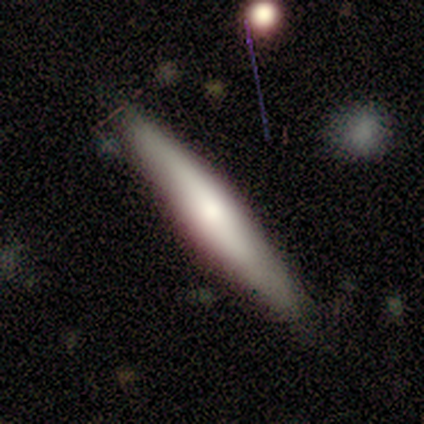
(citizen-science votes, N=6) A smooth galaxy with no disk features (67%) that is in between round and cigar-shaped (50%, tied with cigar-shaped).

Vote fractions:
- Smooth or featured? smooth: 67% / featured or disk: 33% / star or artifact: 0%
- How rounded? in between: 50% (tied) / cigar-shaped: 50% (tied) / round: 0%
- Merging? none: 100% / minor disturbance: 0% / major disturbance: 0% / merger: 0%